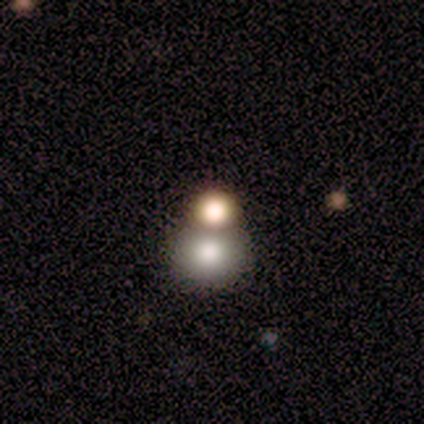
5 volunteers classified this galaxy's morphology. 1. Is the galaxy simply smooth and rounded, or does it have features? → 80% smooth, 20% featured or disk, 0% star or artifact.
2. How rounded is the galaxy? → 75% round, 25% in between, 0% cigar-shaped.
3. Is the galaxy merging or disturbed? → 60% none, 40% merger, 0% minor disturbance, 0% major disturbance.